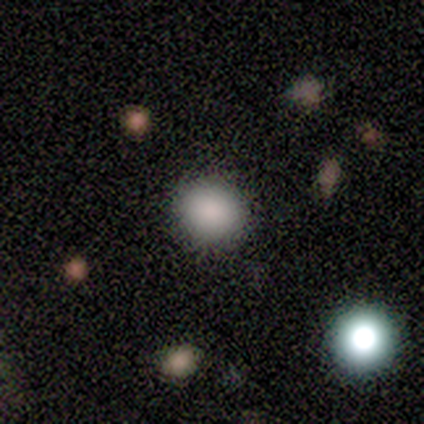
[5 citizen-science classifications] Smooth or featured? 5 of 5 (100%) said smooth. How rounded? 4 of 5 (80%) said round. Merging? 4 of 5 (80%) said none.